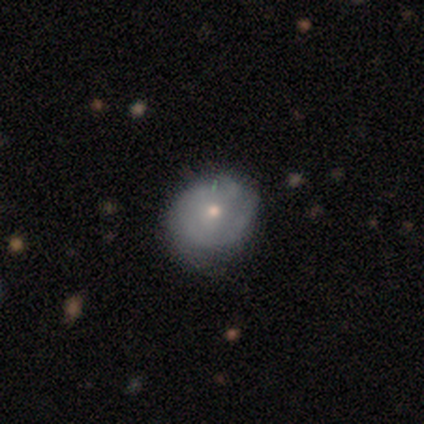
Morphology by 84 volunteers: Smooth or featured?
  - smooth: 48% *
  - featured or disk: 46%
  - star or artifact: 6%
How rounded?
  - round: 78% *
  - in between: 22%
  - cigar-shaped: 0%
Merging?
  - none: 65% *
  - minor disturbance: 32%
  - major disturbance: 4%
  - merger: 0%